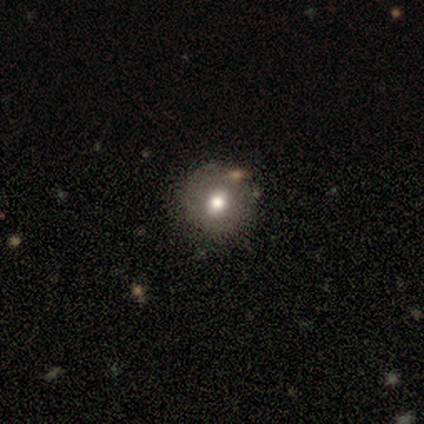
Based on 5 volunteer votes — Smooth or featured?
  - smooth: 80% *
  - featured or disk: 20%
  - star or artifact: 0%
How rounded?
  - round: 75% *
  - in between: 25%
  - cigar-shaped: 0%
Merging?
  - none: 80% *
  - minor disturbance: 20%
  - major disturbance: 0%
  - merger: 0%